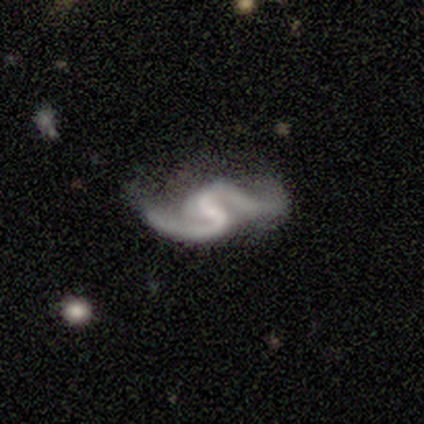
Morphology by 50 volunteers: Smooth or featured? featured or disk (98%)
Edge-on disk? no (100%)
Bar? weak (51%)
Spiral arms? yes (88%)
Spiral winding? loose (67%)
Spiral arm count? 2 (88%)
Bulge size? small (41%)
Merging? major disturbance (41%)